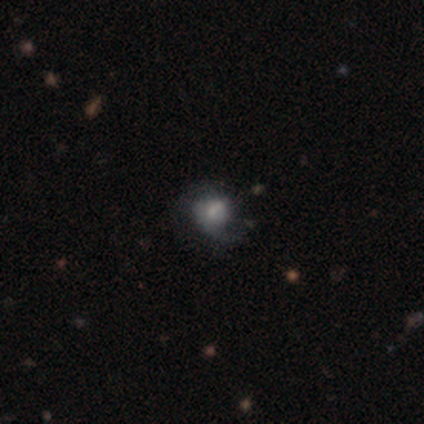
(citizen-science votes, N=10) Q: Smooth or featured?
A: smooth (50%); tied with: featured or disk (50%)
Q: How rounded?
A: round (80%); runner-up: in between (20%)
Q: Merging?
A: none (60%); runner-up: major disturbance (20%)